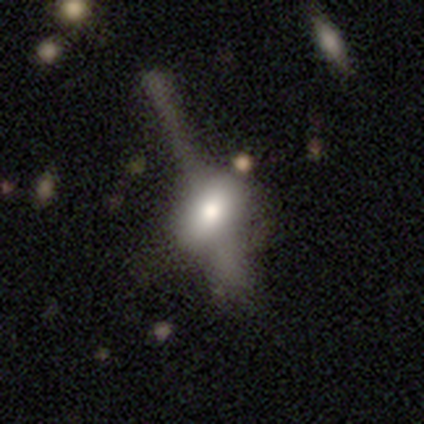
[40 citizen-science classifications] Morphology: type=smooth (55%); roundness=in between (91%); merging=none (24%).